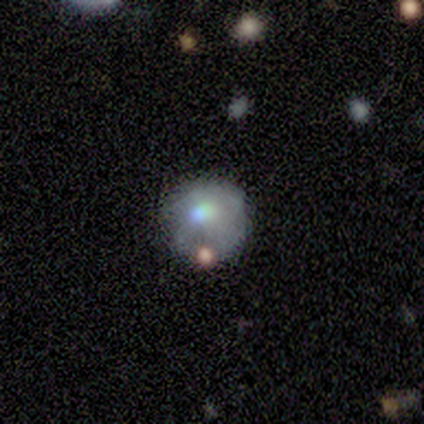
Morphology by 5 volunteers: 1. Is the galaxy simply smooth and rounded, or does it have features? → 60% featured or disk, 20% smooth, 20% star or artifact.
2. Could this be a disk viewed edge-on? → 100% no, 0% yes.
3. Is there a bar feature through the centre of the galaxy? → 100% no, 0% strong, 0% weak.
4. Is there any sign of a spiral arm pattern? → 100% no, 0% yes.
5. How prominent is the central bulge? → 100% moderate, 0% dominant, 0% large, 0% small, 0% none.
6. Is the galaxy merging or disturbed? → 75% none, 25% minor disturbance, 0% major disturbance, 0% merger.